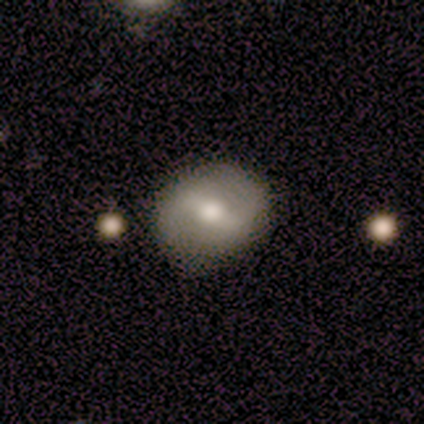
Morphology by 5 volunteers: A smooth galaxy with no disk features (60%) that is in between round and cigar-shaped (67%).

Vote fractions:
- Smooth or featured? smooth: 60% / featured or disk: 40% / star or artifact: 0%
- How rounded? in between: 67% / round: 33% / cigar-shaped: 0%
- Merging? none: 100% / minor disturbance: 0% / major disturbance: 0% / merger: 0%